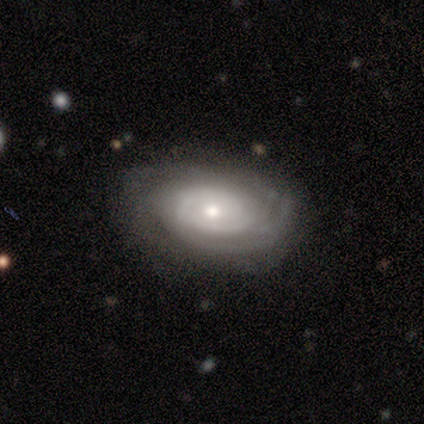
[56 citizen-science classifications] Morphology: type=featured or disk (88%); edge-on=no (96%); bar=no (81%); spiral arms=yes (87%); winding=tight (80%); arm count=can't tell (51%); bulge=moderate (62%); merging=none (73%).